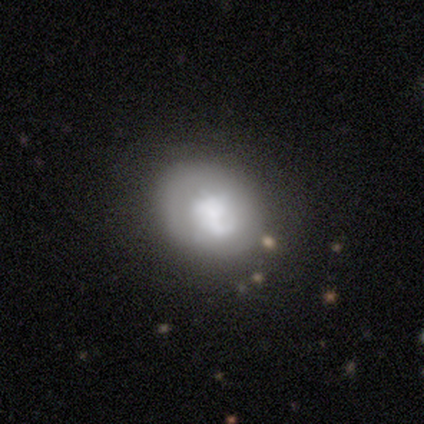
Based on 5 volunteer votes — Smooth or featured: smooth — 80% (featured or disk — 20%)
How rounded: round — 75% (in between — 25%)
Merging: none — 80% (minor disturbance — 20%)